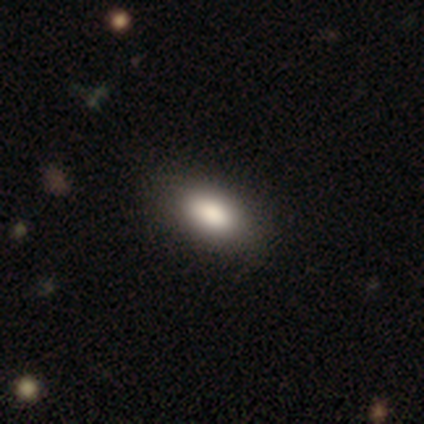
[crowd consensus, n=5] Q: Smooth or featured?
A: smooth (80%); runner-up: star or artifact (20%)
Q: How rounded?
A: in between (75%); runner-up: round (25%)
Q: Merging?
A: none (50%); tied with: minor disturbance (50%)